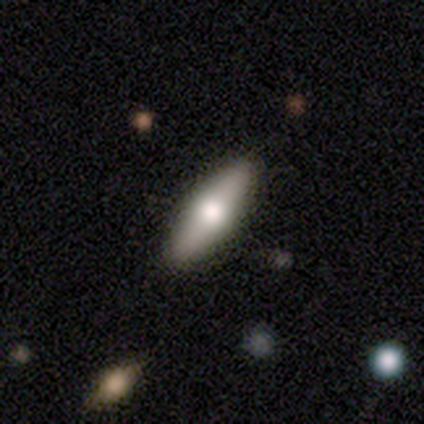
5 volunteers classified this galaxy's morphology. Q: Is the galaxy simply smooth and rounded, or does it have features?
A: featured or disk — 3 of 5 (60%).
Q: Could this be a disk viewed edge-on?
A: no — 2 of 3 (67%).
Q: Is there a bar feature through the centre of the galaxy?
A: no — 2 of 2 (100%).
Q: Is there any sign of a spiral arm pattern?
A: no — 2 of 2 (100%).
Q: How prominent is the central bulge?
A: large — 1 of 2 (50%, tied with moderate).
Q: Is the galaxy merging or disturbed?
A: none — 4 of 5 (80%).